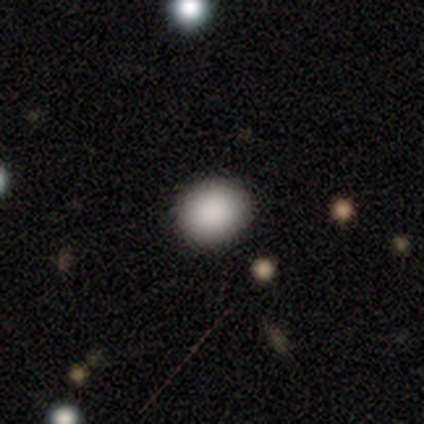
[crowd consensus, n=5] A smooth galaxy with no disk features (100%) that is in between round and cigar-shaped (60%).

Vote fractions:
- Smooth or featured? smooth: 100% / featured or disk: 0% / star or artifact: 0%
- How rounded? in between: 60% / round: 40% / cigar-shaped: 0%
- Merging? none: 100% / minor disturbance: 0% / major disturbance: 0% / merger: 0%